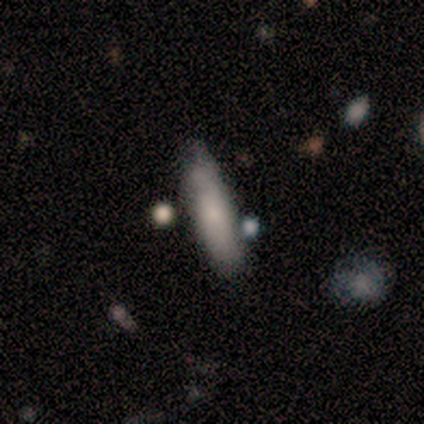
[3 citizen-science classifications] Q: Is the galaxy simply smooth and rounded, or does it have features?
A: smooth — 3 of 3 (100%).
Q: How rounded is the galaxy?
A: cigar-shaped — 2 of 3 (67%).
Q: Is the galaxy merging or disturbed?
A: none — 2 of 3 (67%).